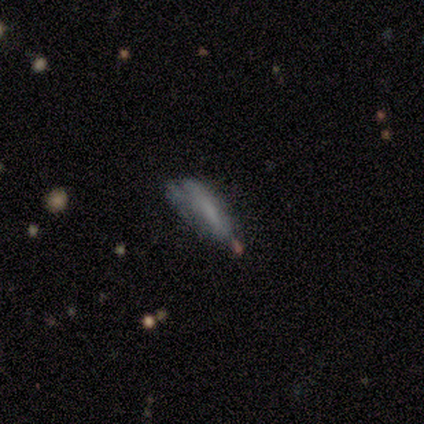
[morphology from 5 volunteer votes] Smooth or featured? smooth (60%)
How rounded? cigar-shaped (100%)
Merging? minor disturbance (50%)